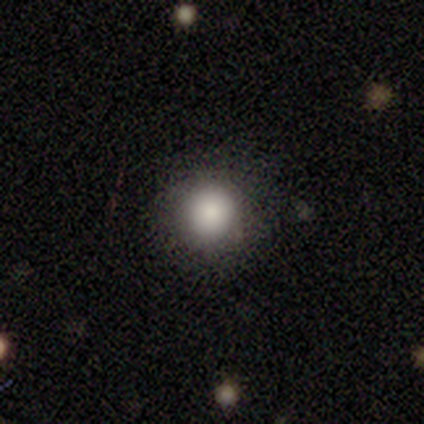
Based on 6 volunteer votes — smooth_or_featured: smooth (p=0.67) [alt: featured or disk p=0.17]
how_rounded: round (p=1.00)
merging: none (p=0.60) [alt: minor disturbance p=0.20]